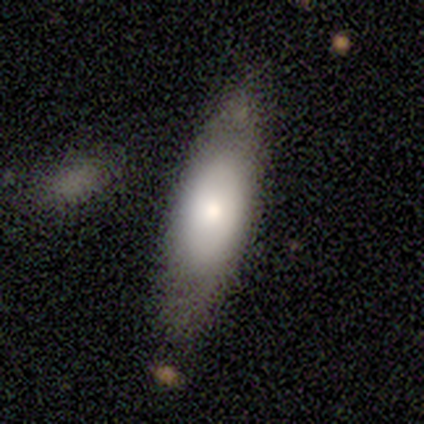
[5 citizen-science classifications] Overall: smooth (60%; featured or disk 40%). How rounded: in between (67%; cigar-shaped 33%). Merging: minor disturbance (60%; none 20%).